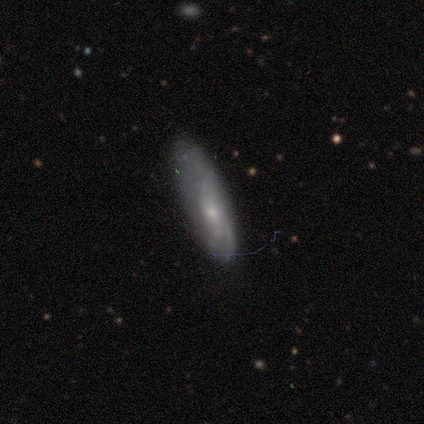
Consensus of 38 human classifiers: Volunteers were most divided on "how rounded": cigar-shaped: 52%, in between: 48%, round: 0%. More confident: merging — none (74%); smooth or featured — smooth (55%).